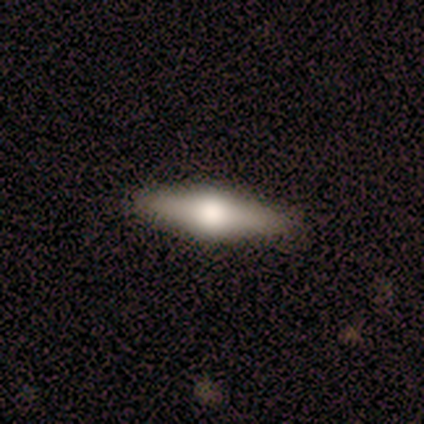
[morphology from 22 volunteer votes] Volunteers were most divided on "smooth or featured": featured or disk: 59%, smooth: 36%, star or artifact: 5%. More confident: edge-on bulge — rounded (100%); merging — none (95%); edge-on disk — yes (92%).